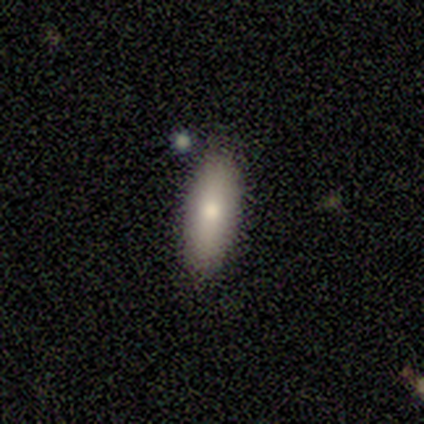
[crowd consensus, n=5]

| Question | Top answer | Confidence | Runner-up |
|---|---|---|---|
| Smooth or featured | smooth | 80% | star or artifact (20%) |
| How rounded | in between | 75% | cigar-shaped (25%) |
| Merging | none | 100% | — |